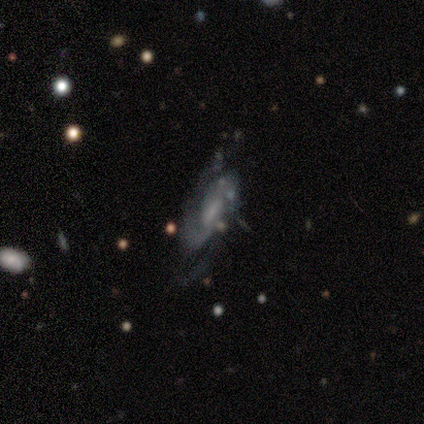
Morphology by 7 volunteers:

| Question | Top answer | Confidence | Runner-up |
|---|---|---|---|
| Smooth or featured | featured or disk | 100% | — |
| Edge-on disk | no | 86% | yes (14%) |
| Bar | no | 50% | weak (33%) |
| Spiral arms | yes | 100% | — |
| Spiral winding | medium | 50% | loose (33%) |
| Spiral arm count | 2 | 67% | 3 (17%) |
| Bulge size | small | 50% | tied: none (50%) |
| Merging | none | 57% | minor disturbance (14%) |